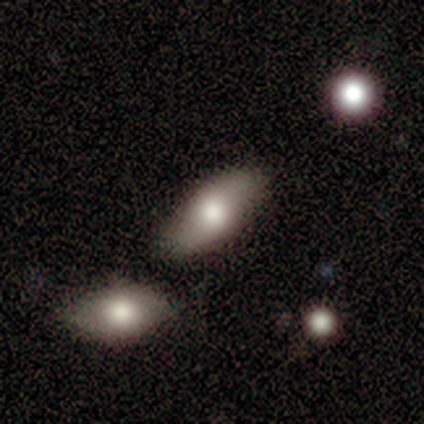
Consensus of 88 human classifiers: Volunteers were most divided on "smooth or featured": smooth: 57%, featured or disk: 35%, star or artifact: 8%. More confident: how rounded — in between (94%); merging — none (67%).